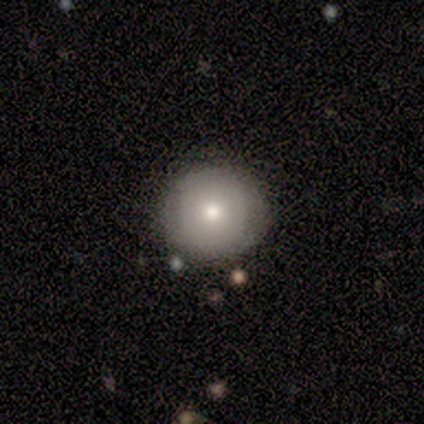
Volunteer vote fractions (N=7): smooth-or-featured: smooth: 100% | featured or disk: 0% | star or artifact: 0%
  how-rounded: round: 100% | in between: 0% | cigar-shaped: 0%
  merging: none: 100% | minor disturbance: 0% | major disturbance: 0% | merger: 0%